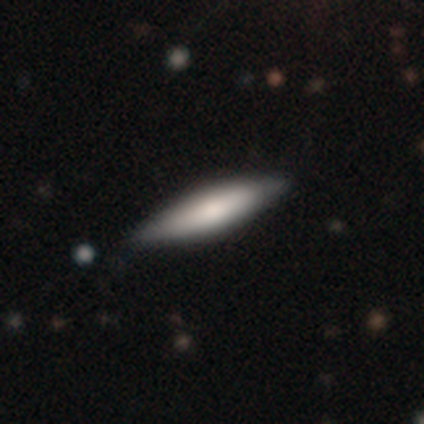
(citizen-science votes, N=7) A smooth galaxy with no disk features (71%) that is cigar-shaped (80%).

Vote fractions:
- Smooth or featured? smooth: 71% / featured or disk: 29% / star or artifact: 0%
- How rounded? cigar-shaped: 80% / in between: 20% / round: 0%
- Merging? none: 57% / minor disturbance: 43% / major disturbance: 0% / merger: 0%